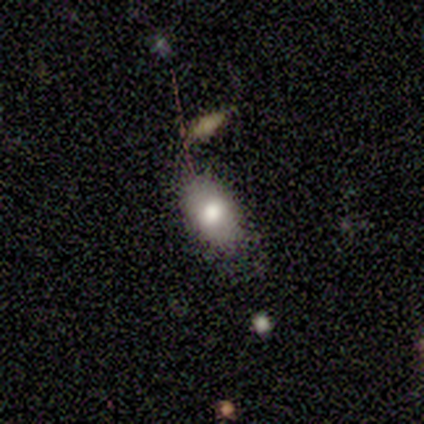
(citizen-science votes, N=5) Smooth or featured? 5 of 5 (100%) said smooth. How rounded? 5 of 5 (100%) said in between. Merging? 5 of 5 (100%) said none.